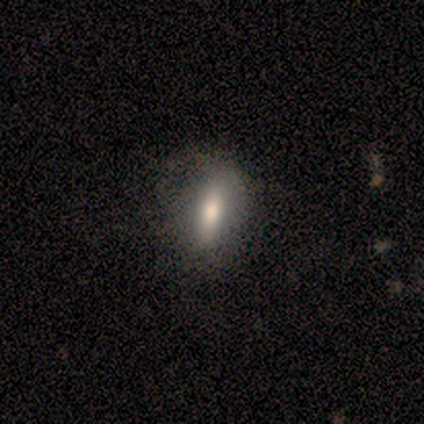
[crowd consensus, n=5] Smooth or featured?
  - featured or disk: 60% *
  - smooth: 40%
  - star or artifact: 0%
Edge-on disk?
  - yes: 67% *
  - no: 33%
Edge-on bulge?
  - rounded: 100% *
  - boxy: 0%
  - none: 0%
Merging?
  - minor disturbance: 60% *
  - none: 40%
  - major disturbance: 0%
  - merger: 0%